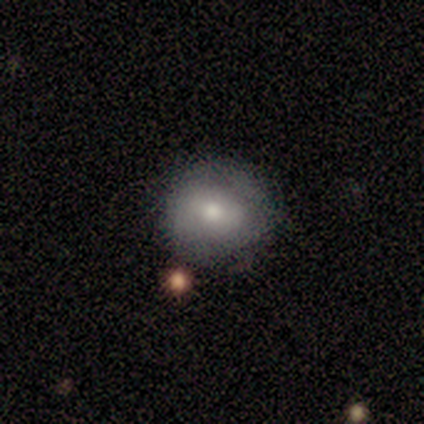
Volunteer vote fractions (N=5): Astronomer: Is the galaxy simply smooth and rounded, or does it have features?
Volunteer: smooth — 60% (runner-up: featured or disk, 40%).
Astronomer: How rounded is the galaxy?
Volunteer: round — 100%.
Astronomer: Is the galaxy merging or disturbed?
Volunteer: none — 80%.